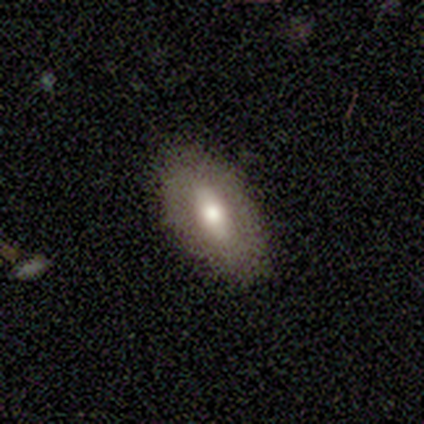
Q: Smooth or featured?
A: smooth (75%); runner-up: featured or disk (25%)
Q: How rounded?
A: in between (67%); runner-up: round (33%)
Q: Merging?
A: none (100%)